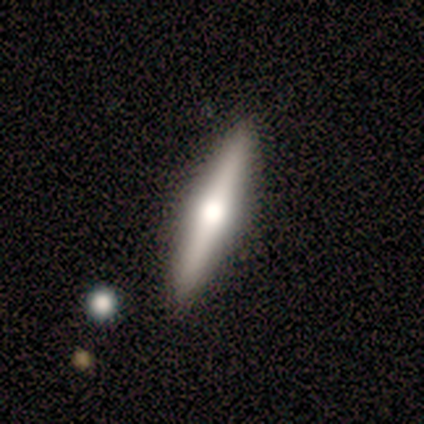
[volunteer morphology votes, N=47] Smooth or featured? featured or disk (53%)
Edge-on disk? yes (96%)
Edge-on bulge? rounded (100%)
Merging? none (93%)